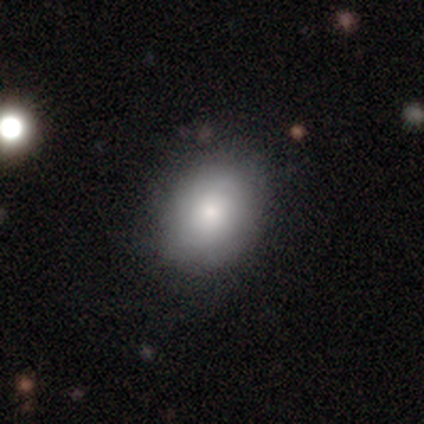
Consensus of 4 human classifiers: A smooth galaxy with no disk features (75%) that is in between round and cigar-shaped (67%). Merging: none (100%).